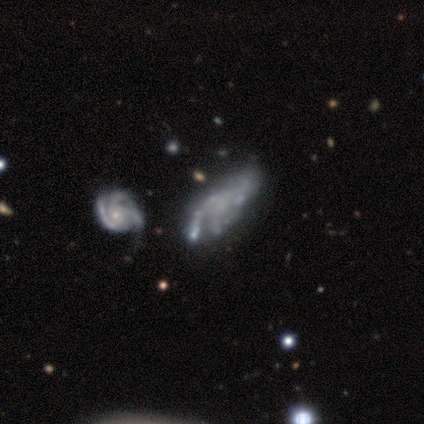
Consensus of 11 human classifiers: Smooth or featured? featured or disk (91%)
Edge-on disk? no (90%)
Bar? no (78%)
Spiral arms? yes (67%)
Spiral winding? medium (50%)
Spiral arm count? 3 (50%)
Bulge size? small (44%, tied with none)
Merging? minor disturbance (36%)